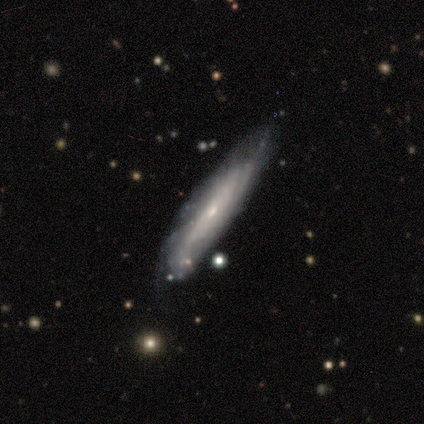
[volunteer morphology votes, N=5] type=smooth (40%, tied with featured or disk); roundness=in between (100%); merging=none (75%).